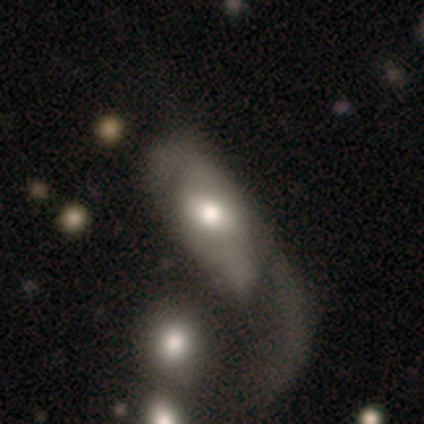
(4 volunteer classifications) smooth 50% (tied), featured or disk 50% (tied), star or artifact 0%. Down the decision tree: how rounded — in between (100%); merging — major disturbance (75%).